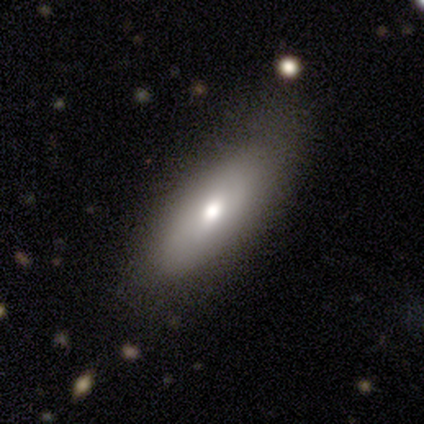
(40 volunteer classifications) Morphology: type=smooth (62%); roundness=in between (60%); merging=none (87%).